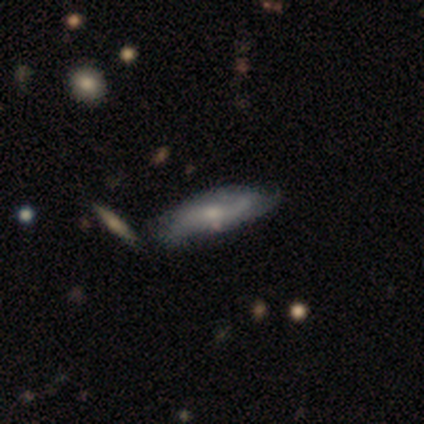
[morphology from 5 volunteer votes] This is likely a featured or disk galaxy (60%). It is clearly not viewed edge-on (100%). Bar: likely no (67%). Spiral arm pattern: clearly yes (100%). Spiral arm count: likely 2 (67%). Spiral winding: marginally tight (33%, tied with medium and loose). Central bulge: clearly small (100%). Merging: likely minor disturbance (60%).